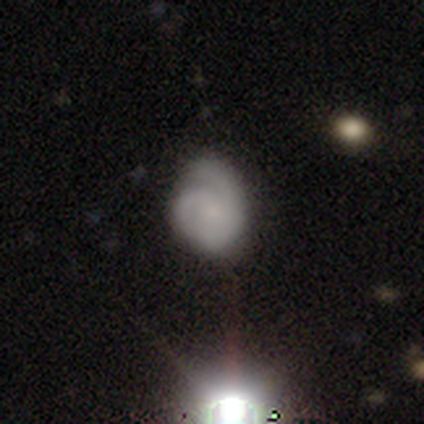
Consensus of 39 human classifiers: This appears to be a featured or disk galaxy (62%) with no bar (88%), 2 (61%) medium (48%) spiral arms (96%) and a small central bulge (54%). Merging: none (53%).